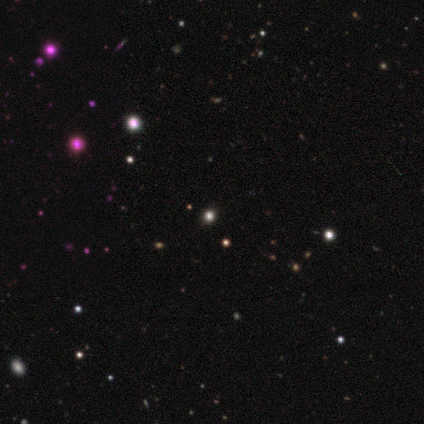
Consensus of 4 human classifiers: Smooth or featured: star or artifact — 100%